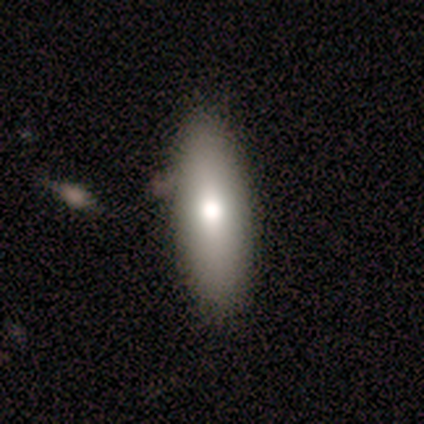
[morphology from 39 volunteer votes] type=smooth (62%); roundness=in between (75%); merging=none (58%).